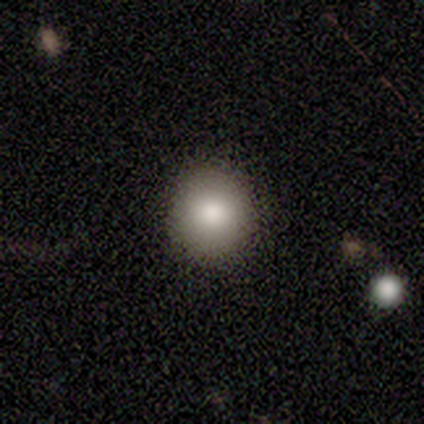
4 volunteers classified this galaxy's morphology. A smooth galaxy with no disk features (50%, tied with star or artifact) that is round (100%).

Vote fractions:
- Smooth or featured? smooth: 50% (tied) / star or artifact: 50% (tied) / featured or disk: 0%
- How rounded? round: 100% / in between: 0% / cigar-shaped: 0%
- Merging? none: 100% / minor disturbance: 0% / major disturbance: 0% / merger: 0%